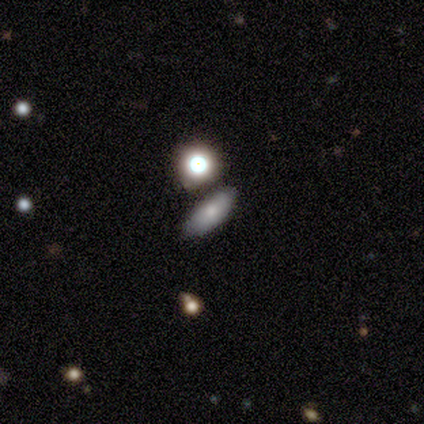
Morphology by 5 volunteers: A smooth galaxy with no disk features (80%) that is in between round and cigar-shaped (50%, tied with cigar-shaped).

Vote fractions:
- Smooth or featured? smooth: 80% / featured or disk: 20% / star or artifact: 0%
- How rounded? in between: 50% (tied) / cigar-shaped: 50% (tied) / round: 0%
- Merging? none: 80% / merger: 20% / minor disturbance: 0% / major disturbance: 0%